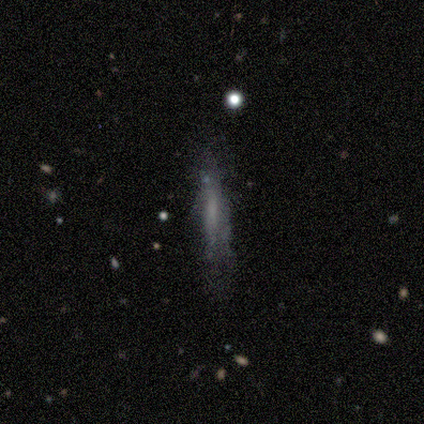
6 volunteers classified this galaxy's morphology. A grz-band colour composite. It shows a smooth galaxy with no disk features (67%) that is cigar-shaped (100%). Merging: none (67%).